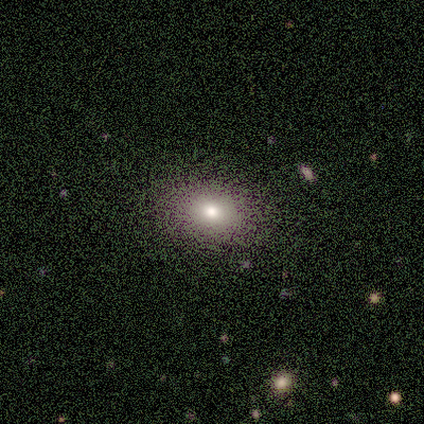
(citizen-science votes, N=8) Volunteers were most divided on "how rounded": in between: 71%, round: 29%, cigar-shaped: 0%. More confident: smooth or featured — smooth (88%); merging — none (88%).